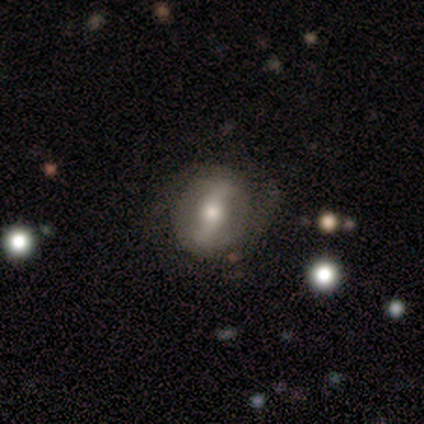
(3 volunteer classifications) Smooth or featured?
  - featured or disk: 67% *
  - smooth: 33%
  - star or artifact: 0%
Edge-on disk?
  - no: 100% *
  - yes: 0%
Bar?
  - strong: 50% * (tied)
  - no: 50% * (tied)
  - weak: 0%
Spiral arms?
  - yes: 100% *
  - no: 0%
Spiral winding?
  - tight: 50% * (tied)
  - medium: 50% * (tied)
  - loose: 0%
Spiral arm count?
  - 2: 100% *
  - 1: 0%
  - 3: 0%
  - 4: 0%
  - more than 4: 0%
  - can't tell: 0%
Bulge size?
  - moderate: 50% * (tied)
  - small: 50% * (tied)
  - dominant: 0%
  - large: 0%
  - none: 0%
Merging?
  - none: 67% *
  - minor disturbance: 33%
  - major disturbance: 0%
  - merger: 0%